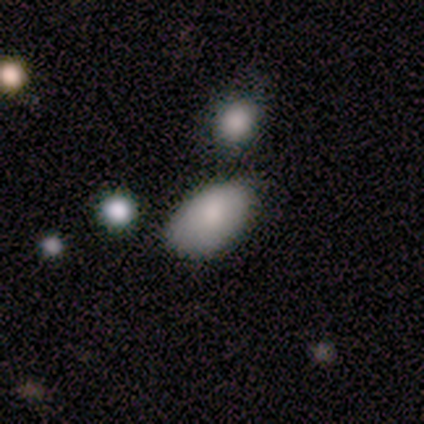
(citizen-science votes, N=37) Overall: smooth (81%). How rounded: in between (90%). Merging: none (69%).